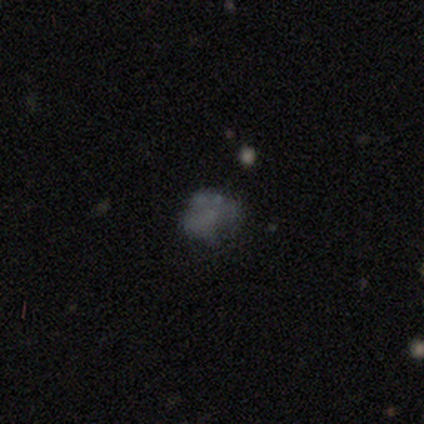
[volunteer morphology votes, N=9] smooth-or-featured: featured or disk: 44% | star or artifact: 33% | smooth: 22%
  disk-edge-on: no: 100% | yes: 0%
    bar: no: 100% | strong: 0% | weak: 0%
    has-spiral-arms: no: 100% | yes: 0%
    bulge-size: none: 100% | dominant: 0% | large: 0% | moderate: 0% | small: 0%
  merging: minor disturbance: 83% | none: 17% | major disturbance: 0% | merger: 0%